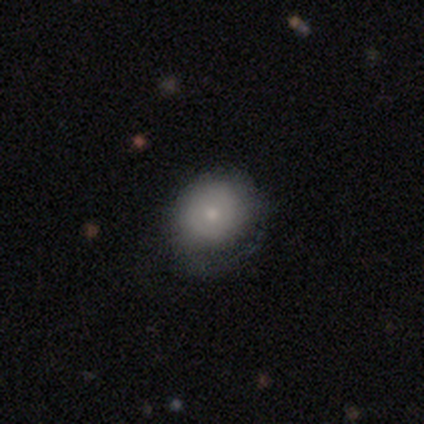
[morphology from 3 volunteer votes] This appears to be a smooth galaxy with no disk features (100%) that is round (100%). Merging: minor disturbance (67%).